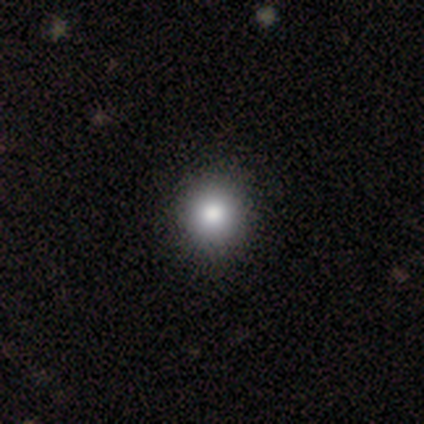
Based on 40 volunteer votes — Q: Smooth or featured?
A: smooth (75%); runner-up: featured or disk (15%)
Q: How rounded?
A: round (97%); runner-up: in between (3%)
Q: Merging?
A: none (72%); runner-up: minor disturbance (3%)